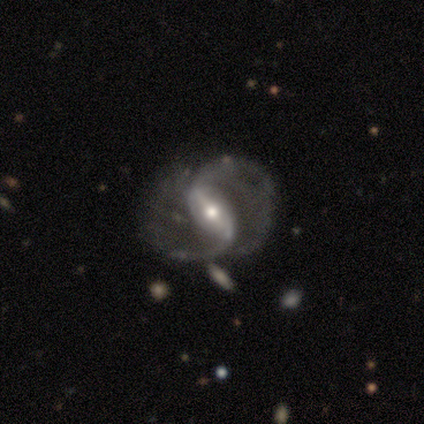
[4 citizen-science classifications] smooth-or-featured: featured or disk: 100% | smooth: 0% | star or artifact: 0%
  disk-edge-on: no: 100% | yes: 0%
    bar: strong: 100% | weak: 0% | no: 0%
    has-spiral-arms: yes: 100% | no: 0%
      spiral-winding: medium: 50% (tied) | loose: 50% (tied) | tight: 0%
      spiral-arm-count: 2: 100% | 1: 0% | 3: 0% | 4: 0% | more than 4: 0% | can't tell: 0%
    bulge-size: moderate: 100% | dominant: 0% | large: 0% | small: 0% | none: 0%
  merging: none: 50% (tied) | minor disturbance: 50% (tied) | major disturbance: 0% | merger: 0%